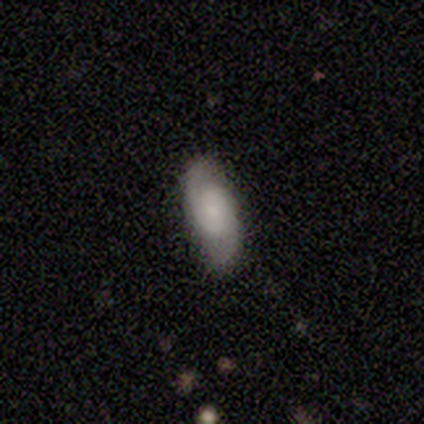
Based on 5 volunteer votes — smooth-or-featured: smooth: 60% | featured or disk: 40% | star or artifact: 0%
  how-rounded: in between: 100% | round: 0% | cigar-shaped: 0%
  merging: none: 80% | minor disturbance: 20% | major disturbance: 0% | merger: 0%